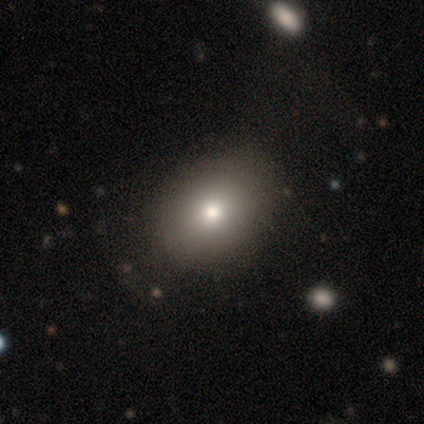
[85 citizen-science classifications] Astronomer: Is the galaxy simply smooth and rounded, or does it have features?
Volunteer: smooth — 72%.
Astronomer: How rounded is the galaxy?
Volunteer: in between — 67%.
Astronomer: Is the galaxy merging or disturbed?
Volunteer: none — 72%.